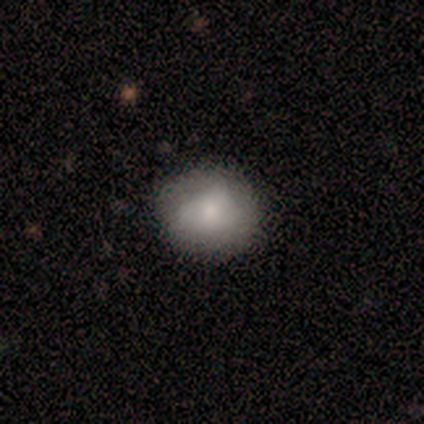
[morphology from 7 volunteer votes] A smooth galaxy with no disk features (71%) that is round (60%).

Vote fractions:
- Smooth or featured? smooth: 71% / featured or disk: 29% / star or artifact: 0%
- How rounded? round: 60% / in between: 40% / cigar-shaped: 0%
- Merging? none: 43% (tied) / minor disturbance: 43% (tied) / major disturbance: 14% / merger: 0%